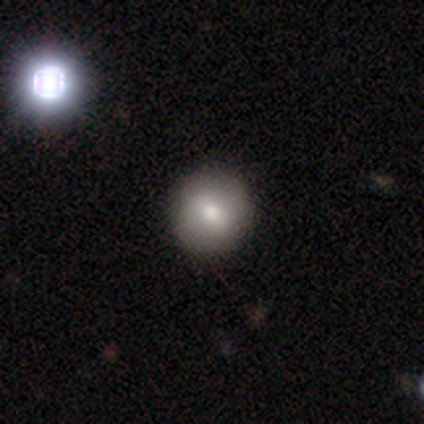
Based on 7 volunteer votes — Smooth or featured: smooth — 71% (featured or disk — 14%)
How rounded: round — 100%
Merging: none — 100%